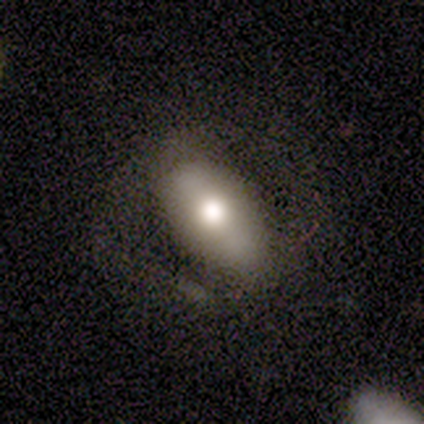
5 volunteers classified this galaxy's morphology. A smooth galaxy with no disk features (40%, tied with featured or disk) that is in between round and cigar-shaped (100%). Merging: none (75%).